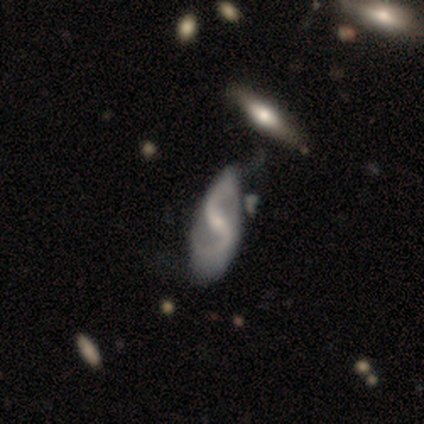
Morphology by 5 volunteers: featured or disk 80%, star or artifact 20%, smooth 0%. Down the decision tree: edge-on disk — no (100%); bar — strong (50%); spiral arms — yes (100%); spiral arm count — 2 (100%); spiral winding — medium (50%); bulge size — moderate (50%, tied with small); merging — none (50%).